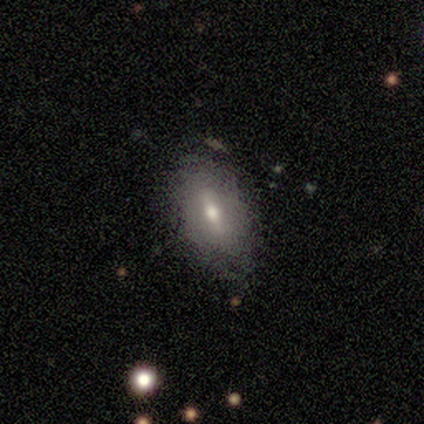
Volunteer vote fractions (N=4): Morphology: type=smooth (50%, tied with featured or disk); roundness=in between (100%); merging=none (75%).